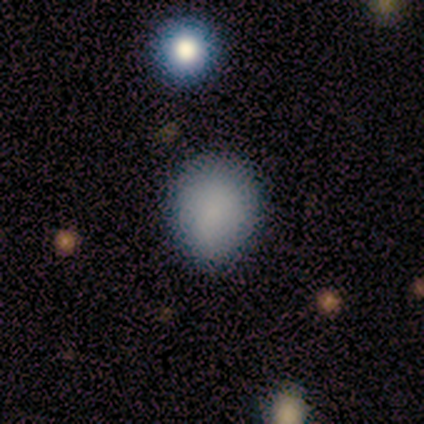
Overall: smooth (100%). How rounded: round (60%; in between 40%). Merging: none (80%).